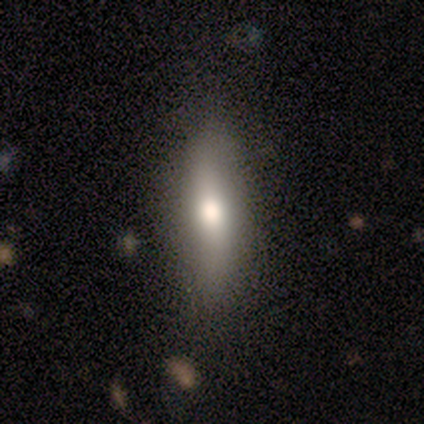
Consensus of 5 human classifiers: smooth-or-featured: smooth: 40% (tied) | featured or disk: 40% (tied) | star or artifact: 20%
  how-rounded: in between: 50% (tied) | cigar-shaped: 50% (tied) | round: 0%
  merging: none: 75% | minor disturbance: 25% | major disturbance: 0% | merger: 0%